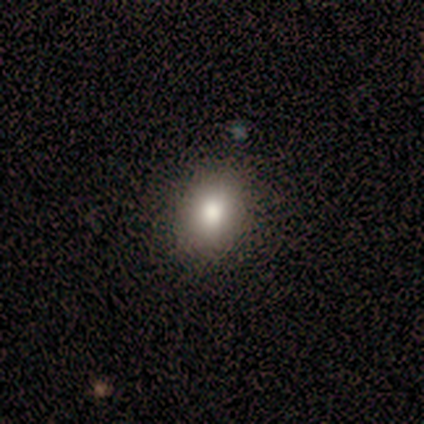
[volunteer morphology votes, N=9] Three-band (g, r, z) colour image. It shows a smooth galaxy with no disk features (89%) that is in between round and cigar-shaped (62%). Merging: none (100%).